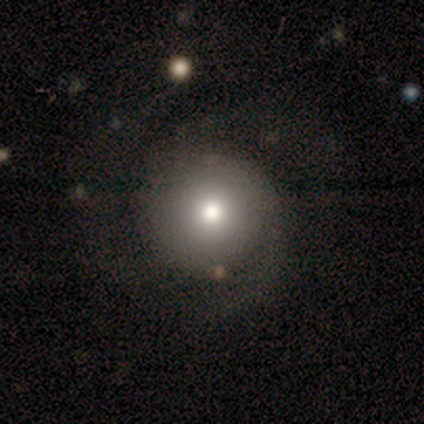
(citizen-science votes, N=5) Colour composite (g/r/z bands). It shows a smooth galaxy with no disk features (80%) that is round (100%). Merging: major disturbance (75%).